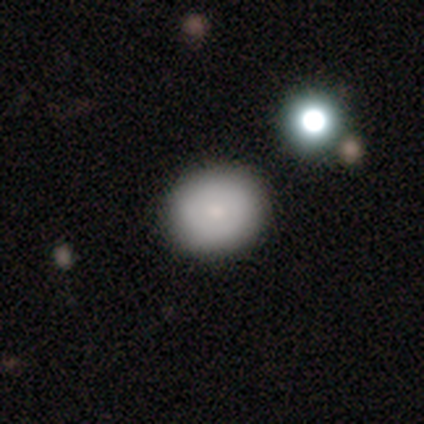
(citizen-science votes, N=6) Morphology: type=smooth (83%); roundness=in between (60%); merging=none (83%).